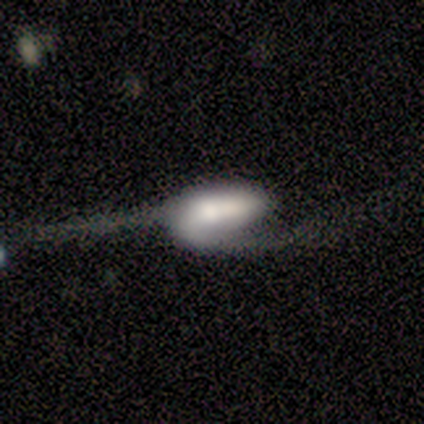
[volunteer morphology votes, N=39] Overall: featured or disk (62%; smooth 31%). Edge-on disk: no (88%). Bar: weak (43%; no 33%). Spiral arms: yes (76%). Spiral arm count: 2 (69%). Spiral winding: loose (81%). Bulge size: large (29%, tied with moderate). Merging: major disturbance (67%; none 28%).